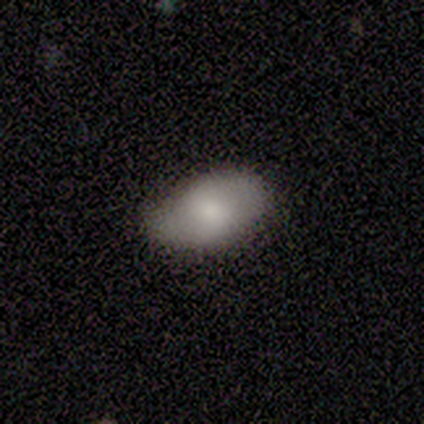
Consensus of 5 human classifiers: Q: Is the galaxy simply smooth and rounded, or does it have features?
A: smooth — 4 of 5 (80%).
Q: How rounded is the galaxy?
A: in between — 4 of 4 (100%).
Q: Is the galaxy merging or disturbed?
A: none — 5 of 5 (100%).